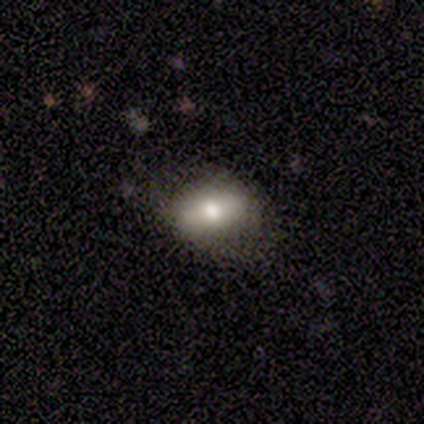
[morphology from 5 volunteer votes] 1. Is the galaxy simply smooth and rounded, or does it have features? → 80% smooth, 20% featured or disk, 0% star or artifact.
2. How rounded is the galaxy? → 75% in between, 25% cigar-shaped, 0% round.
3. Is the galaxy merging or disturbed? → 100% none, 0% minor disturbance, 0% major disturbance, 0% merger.